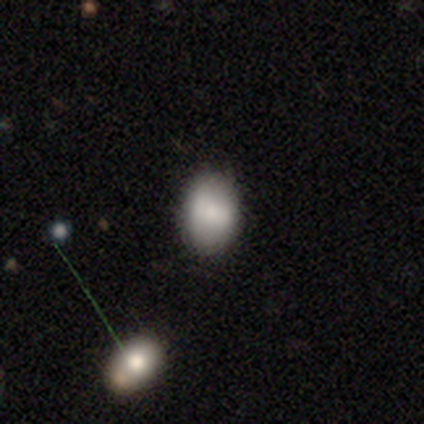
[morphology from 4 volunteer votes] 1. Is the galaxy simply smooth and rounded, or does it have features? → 100% smooth, 0% featured or disk, 0% star or artifact.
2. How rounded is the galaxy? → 75% in between, 25% round, 0% cigar-shaped.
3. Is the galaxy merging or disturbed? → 100% none, 0% minor disturbance, 0% major disturbance, 0% merger.